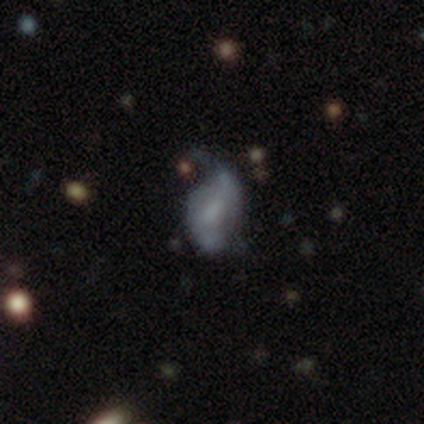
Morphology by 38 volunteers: type=featured or disk (71%); edge-on=no (96%); bar=weak (42%, tied with no); spiral arms=yes (73%); winding=loose (68%); arm count=2 (63%); bulge=none (54%); merging=none (43%).